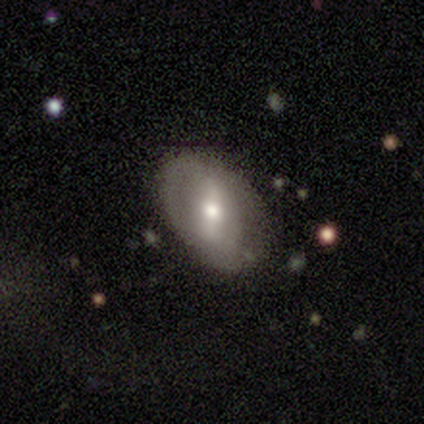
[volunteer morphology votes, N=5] smooth_or_featured: smooth (p=0.60) [alt: featured or disk p=0.40]
how_rounded: in between (p=1.00)
merging: none (p=1.00)